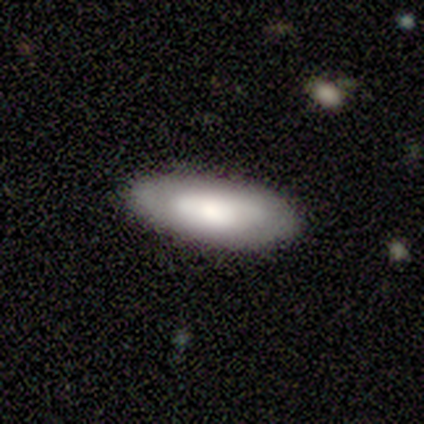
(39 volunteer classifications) Smooth or featured: smooth — 62% (featured or disk — 28%)
How rounded: in between — 92% (cigar-shaped — 8%)
Merging: none — 80% (minor disturbance — 17%)